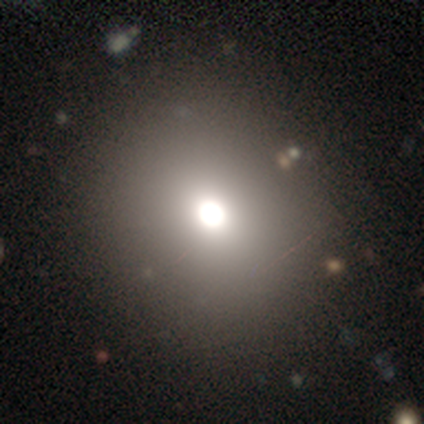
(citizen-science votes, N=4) smooth_or_featured: smooth (p=0.75) [alt: star or artifact p=0.25]
how_rounded: round (p=1.00)
merging: none (p=1.00)